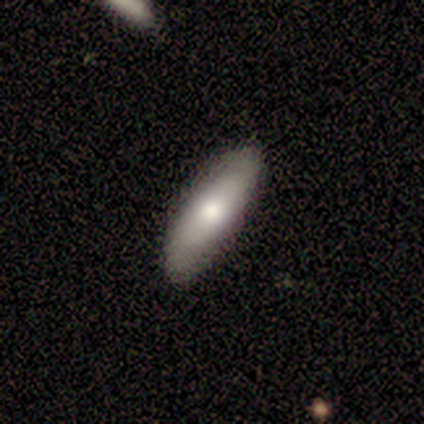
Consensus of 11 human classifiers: Smooth or featured? 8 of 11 (73%) said smooth. How rounded? 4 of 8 (50%, tied with cigar-shaped) said in between. Merging? 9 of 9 (100%) said none.